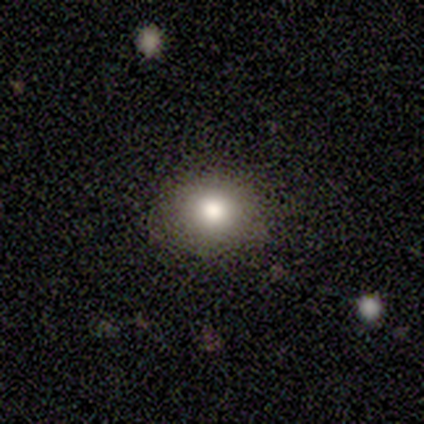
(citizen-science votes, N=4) smooth 100%, featured or disk 0%, star or artifact 0%. Down the decision tree: how rounded — round (100%); merging — none (75%).